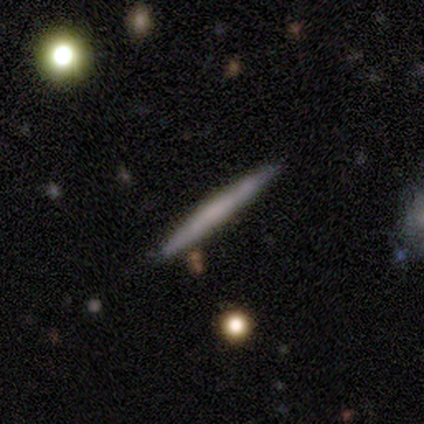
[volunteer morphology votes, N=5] Q: Smooth or featured?
A: smooth (80%); runner-up: featured or disk (20%)
Q: How rounded?
A: cigar-shaped (100%)
Q: Merging?
A: none (80%); runner-up: merger (20%)